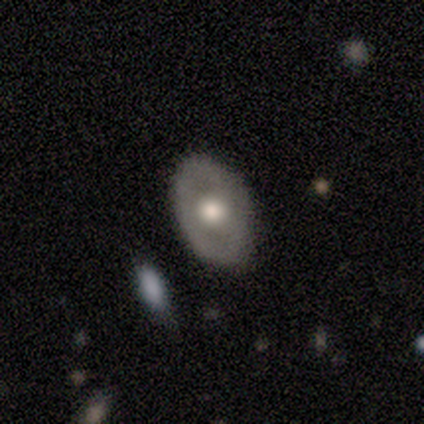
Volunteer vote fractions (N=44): Smooth or featured: featured or disk — 52% (smooth — 45%)
Edge-on disk: no — 96% (yes — 4%)
Bar: no — 100%
Spiral arms: no — 86% (yes — 14%)
Bulge size: moderate — 59% (large — 36%)
Merging: none — 84% (minor disturbance — 12%)